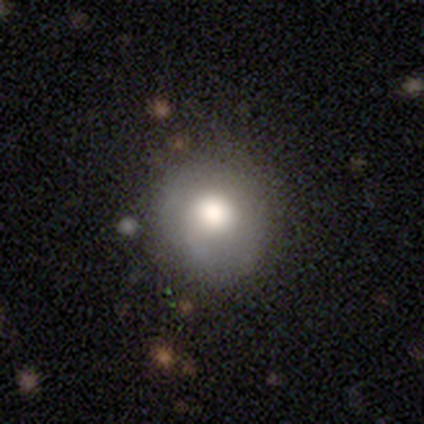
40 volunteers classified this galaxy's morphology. Smooth or featured?
  - smooth: 80% *
  - featured or disk: 15%
  - star or artifact: 5%
How rounded?
  - round: 81% *
  - in between: 19%
  - cigar-shaped: 0%
Merging?
  - none: 71% *
  - minor disturbance: 18%
  - major disturbance: 8%
  - merger: 3%